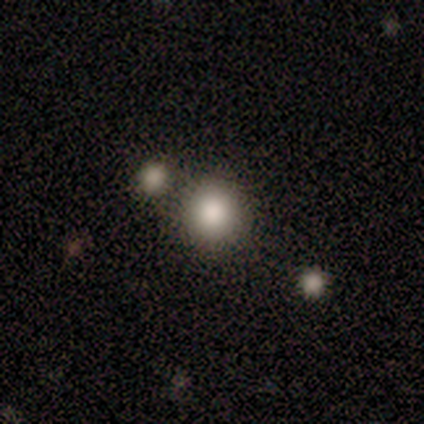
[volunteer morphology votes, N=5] A smooth galaxy with no disk features (80%) that is round (100%).

Vote fractions:
- Smooth or featured? smooth: 80% / featured or disk: 20% / star or artifact: 0%
- How rounded? round: 100% / in between: 0% / cigar-shaped: 0%
- Merging? none: 100% / minor disturbance: 0% / major disturbance: 0% / merger: 0%